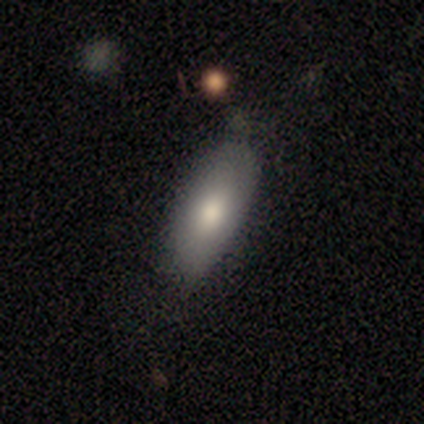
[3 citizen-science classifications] smooth-or-featured: smooth: 100% | featured or disk: 0% | star or artifact: 0%
  how-rounded: in between: 100% | round: 0% | cigar-shaped: 0%
  merging: none: 100% | minor disturbance: 0% | major disturbance: 0% | merger: 0%